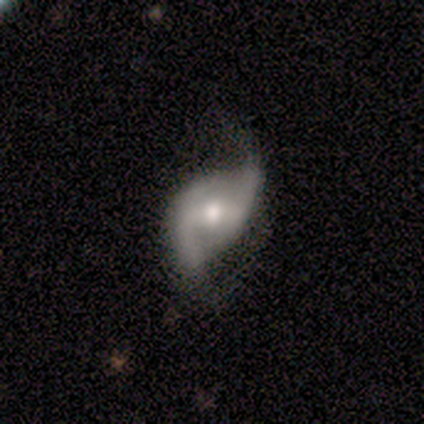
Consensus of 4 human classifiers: This is possibly a smooth galaxy (50%, tied with featured or disk). How rounded: clearly in between (100%). Merging: possibly major disturbance (50%).